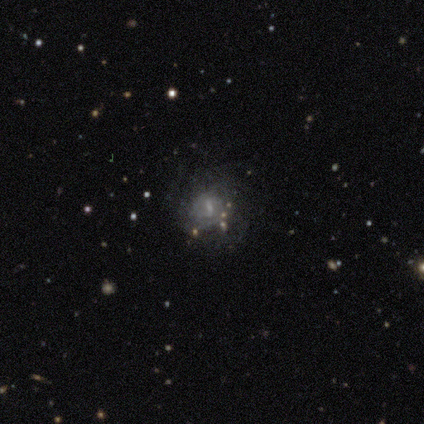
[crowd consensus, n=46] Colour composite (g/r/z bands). It shows a featured or disk galaxy (63%) with a weak bar (45%), medium (45%) spiral arms (69%) and a small central bulge (52%). Merging: none (48%).